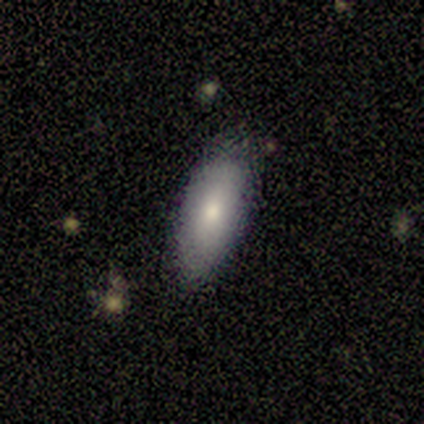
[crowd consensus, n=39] Smooth or featured? smooth (72%)
How rounded? in between (86%)
Merging? none (83%)